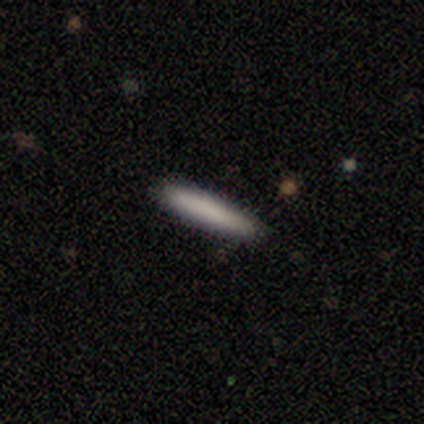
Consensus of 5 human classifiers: This is clearly a smooth galaxy (80%). How rounded: likely cigar-shaped (75%). Merging: clearly none (100%).